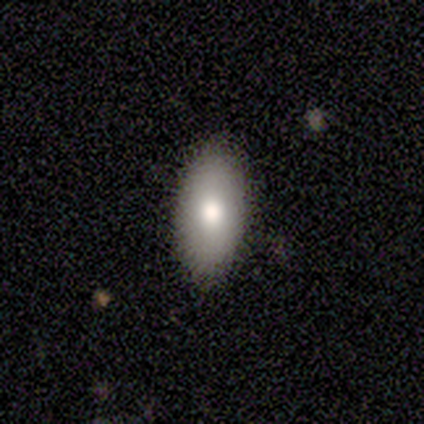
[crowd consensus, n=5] smooth 80%, featured or disk 20%, star or artifact 0%. Down the decision tree: how rounded — in between (100%); merging — none (80%).